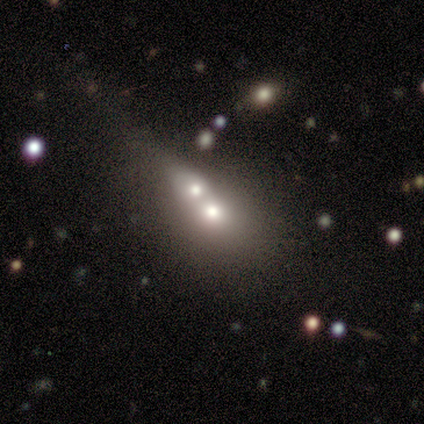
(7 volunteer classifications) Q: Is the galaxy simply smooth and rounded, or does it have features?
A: smooth — 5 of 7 (71%).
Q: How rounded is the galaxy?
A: round — 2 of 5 (40%, tied with in between).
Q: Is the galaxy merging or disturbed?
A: merger — 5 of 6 (83%).